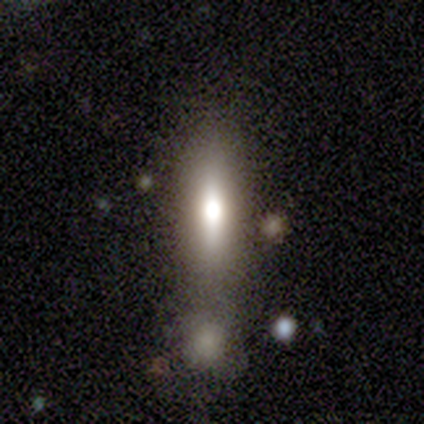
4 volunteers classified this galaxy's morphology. This appears to be a smooth galaxy with no disk features (75%) that is cigar-shaped (67%). Merging: merger (100%).